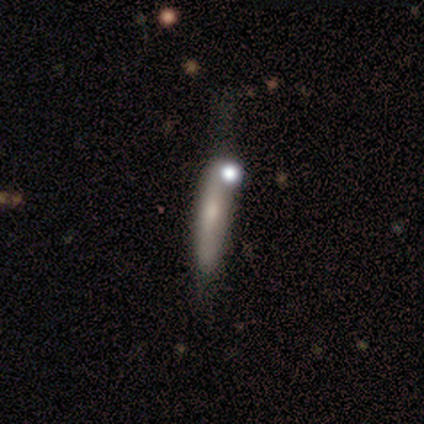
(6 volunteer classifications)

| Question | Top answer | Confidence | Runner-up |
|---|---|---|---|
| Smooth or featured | smooth | 67% | featured or disk (33%) |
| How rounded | cigar-shaped | 100% | — |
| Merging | none | 33% | tied: merger (33%) |